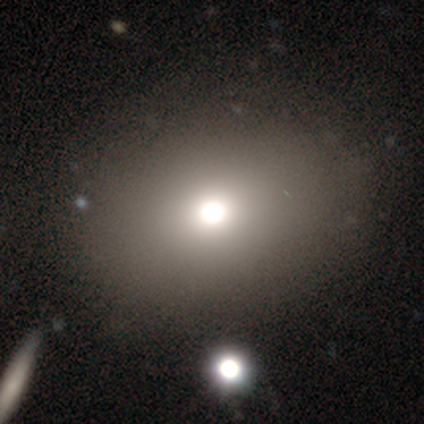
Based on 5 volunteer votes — This appears to be a smooth galaxy with no disk features (60%) that is in between round and cigar-shaped (67%). Merging: none (67%).